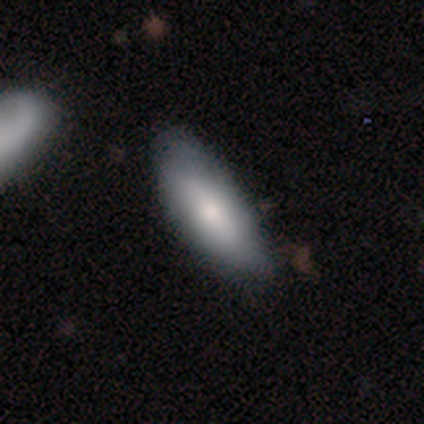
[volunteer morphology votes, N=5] A smooth galaxy with no disk features (60%) that is in between round and cigar-shaped (100%).

Vote fractions:
- Smooth or featured? smooth: 60% / featured or disk: 40% / star or artifact: 0%
- How rounded? in between: 100% / round: 0% / cigar-shaped: 0%
- Merging? minor disturbance: 60% / none: 40% / major disturbance: 0% / merger: 0%